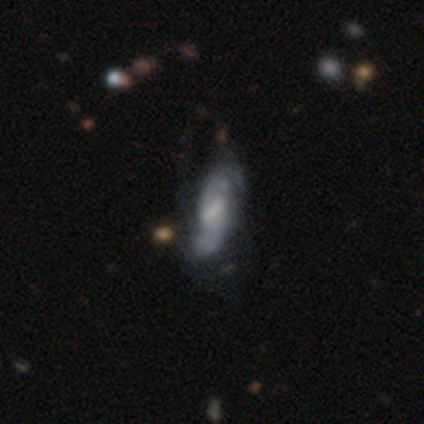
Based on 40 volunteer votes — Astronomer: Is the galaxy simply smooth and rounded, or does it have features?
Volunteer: featured or disk — 75%.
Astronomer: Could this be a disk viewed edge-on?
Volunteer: no — 87%.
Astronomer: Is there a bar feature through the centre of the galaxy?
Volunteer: weak — 77%.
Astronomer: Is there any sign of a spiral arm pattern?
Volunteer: yes — 85%.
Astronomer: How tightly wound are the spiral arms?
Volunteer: loose — 55% (runner-up: medium, 36%).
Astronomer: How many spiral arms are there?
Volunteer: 2 — 73%.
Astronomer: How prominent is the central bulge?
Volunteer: small — 42% (runner-up: none, 35%).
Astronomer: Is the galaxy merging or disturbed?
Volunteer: none — 49%.